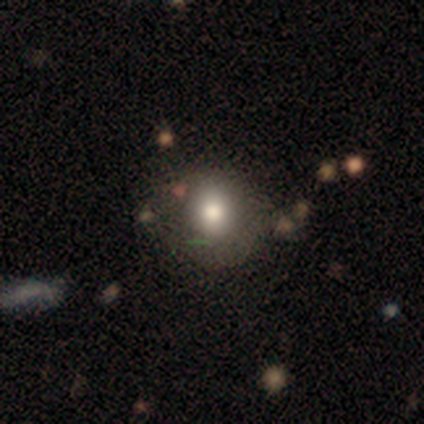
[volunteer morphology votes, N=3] This is likely a smooth galaxy (67%). How rounded: clearly round (100%). Merging: likely none (67%).